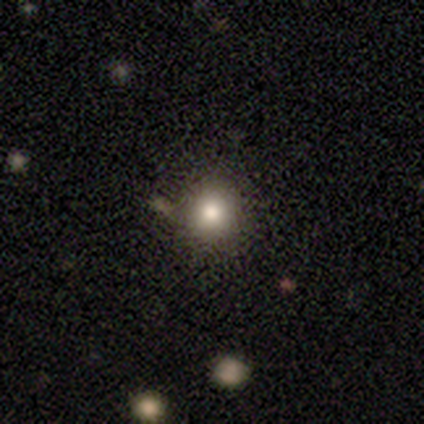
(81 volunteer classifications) A smooth galaxy with no disk features (72%) that is round (95%).

Vote fractions:
- Smooth or featured? smooth: 72% / star or artifact: 20% / featured or disk: 9%
- How rounded? round: 95% / in between: 5% / cigar-shaped: 0%
- Merging? none: 43% / merger: 6% / minor disturbance: 3% / major disturbance: 0%